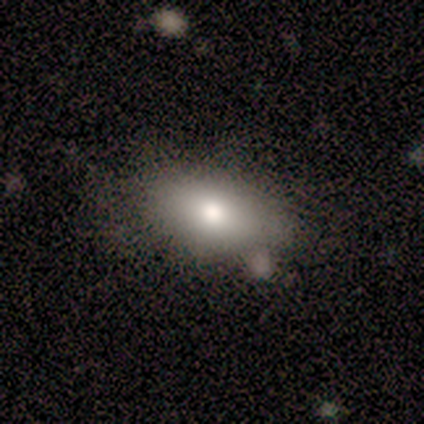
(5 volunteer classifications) A smooth galaxy with no disk features (100%) that is in between round and cigar-shaped (80%). Merging: none (100%).